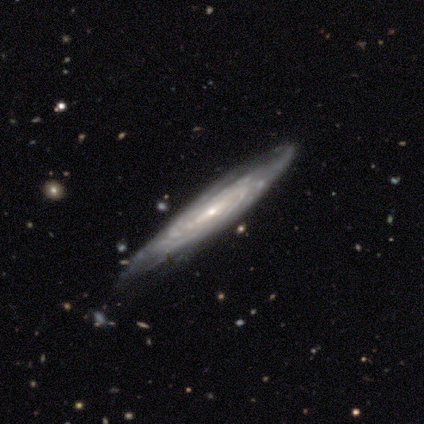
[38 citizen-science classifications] Smooth or featured?
  - featured or disk: 82% *
  - smooth: 18%
  - star or artifact: 0%
Edge-on disk?
  - no: 61% *
  - yes: 39%
Bar?
  - no: 47% *
  - strong: 26%
  - weak: 26%
Spiral arms?
  - yes: 100% *
  - no: 0%
Spiral winding?
  - tight: 68% *
  - medium: 26%
  - loose: 5%
Spiral arm count?
  - can't tell: 74% *
  - 3: 16%
  - 4: 5%
  - more than 4: 5%
  - 1: 0%
  - 2: 0%
Bulge size?
  - small: 74% *
  - moderate: 21%
  - none: 5%
  - dominant: 0%
  - large: 0%
Merging?
  - none: 71% *
  - minor disturbance: 18%
  - major disturbance: 8%
  - merger: 3%